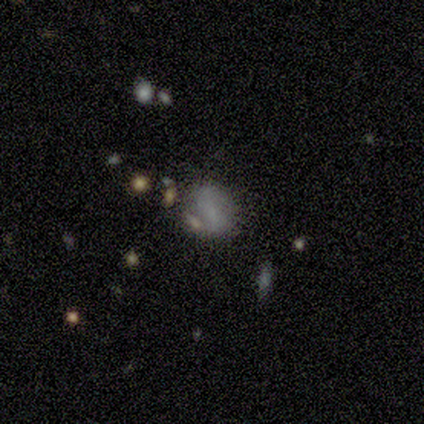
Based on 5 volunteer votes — This is likely a smooth galaxy (60%). How rounded: likely round (67%). Merging: likely none (60%).